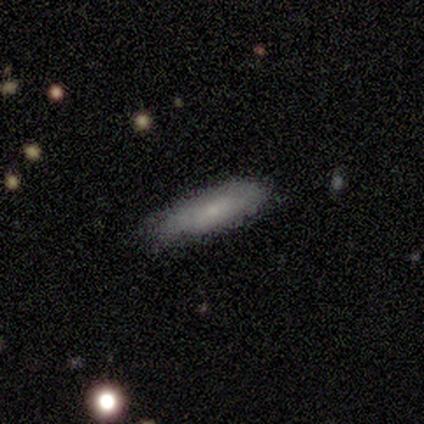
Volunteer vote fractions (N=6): Morphology: type=smooth (67%); roundness=cigar-shaped (50%); merging=none (100%).